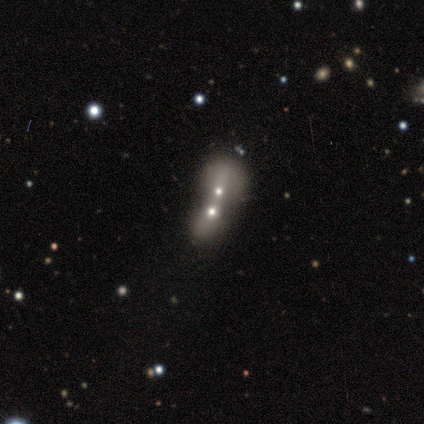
Smooth or featured? smooth (40%, tied with featured or disk)
How rounded? in between (100%)
Merging? merger (100%)